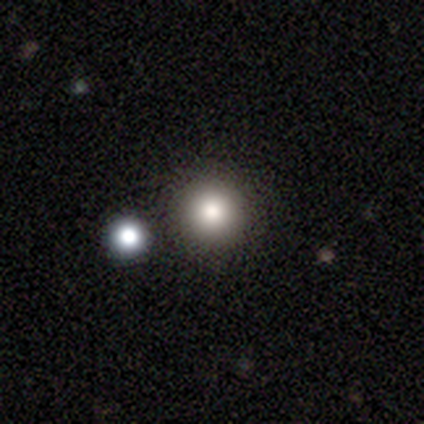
smooth_or_featured: smooth (p=0.60) [alt: featured or disk p=0.20]
how_rounded: round (p=1.00)
merging: none (p=1.00)